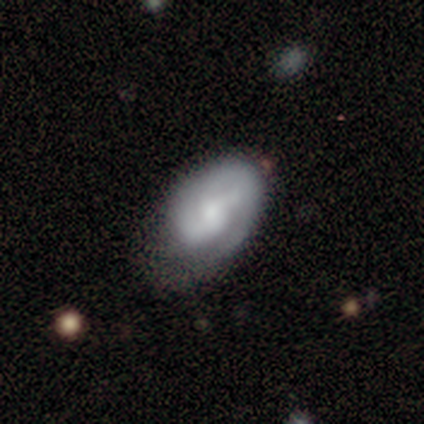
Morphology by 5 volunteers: type=smooth (60%); roundness=in between (100%); merging=minor disturbance (60%).